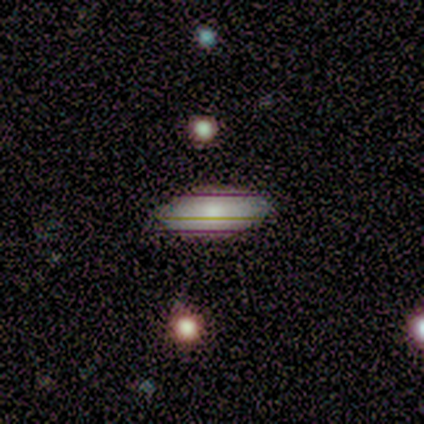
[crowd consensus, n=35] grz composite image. It shows a smooth galaxy with no disk features (60%) that is in between round and cigar-shaped (86%). Merging: none (93%).